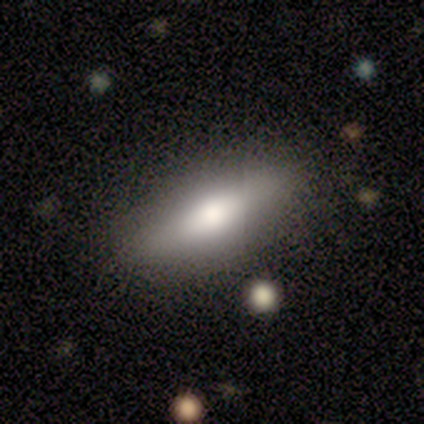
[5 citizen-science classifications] This is likely a smooth galaxy (60%). How rounded: clearly in between (100%). Merging: likely none (60%).